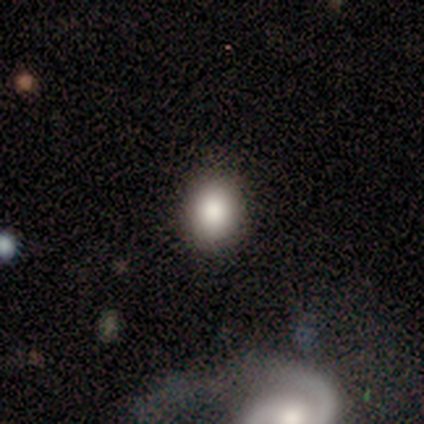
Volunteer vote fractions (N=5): Smooth or featured? smooth (100%)
How rounded? round (80%)
Merging? none (100%)